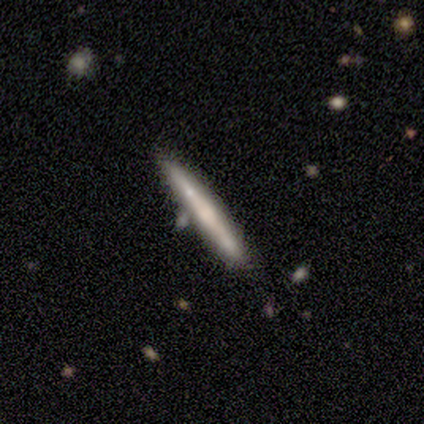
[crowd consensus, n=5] Morphology: type=smooth (100%); roundness=cigar-shaped (100%); merging=none (80%).